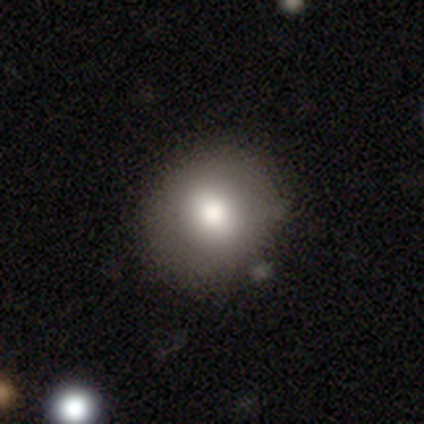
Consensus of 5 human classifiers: This appears to be a smooth galaxy with no disk features (80%) that is round (50%, tied with in between). Merging: none (80%).